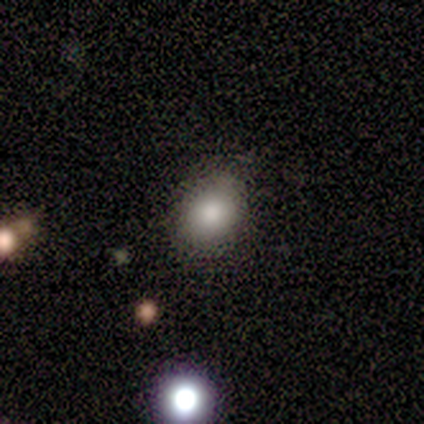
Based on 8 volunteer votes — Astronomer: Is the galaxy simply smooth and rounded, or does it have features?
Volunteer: smooth — 62%.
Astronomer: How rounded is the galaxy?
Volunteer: in between — 60% (runner-up: round, 40%).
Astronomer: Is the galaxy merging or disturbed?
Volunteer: none — 83%.